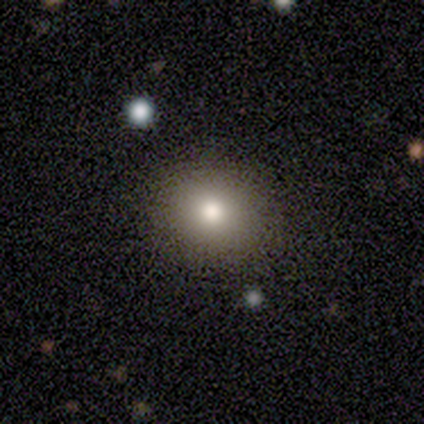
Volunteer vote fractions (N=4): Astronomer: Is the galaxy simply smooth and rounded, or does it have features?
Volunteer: smooth — 100%.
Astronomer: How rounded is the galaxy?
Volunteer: round — 50%, tied with in between at 50%.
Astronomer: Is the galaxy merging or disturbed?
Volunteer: none — 100%.